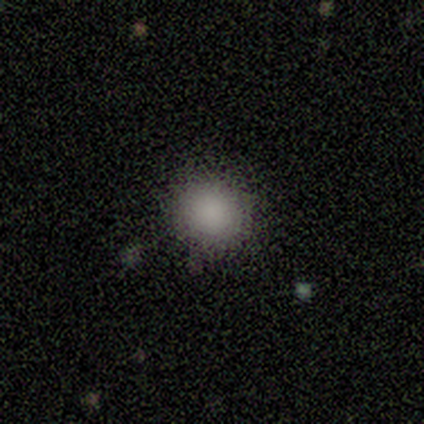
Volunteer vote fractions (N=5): Q: Smooth or featured?
A: smooth (80%); runner-up: star or artifact (20%)
Q: How rounded?
A: round (100%)
Q: Merging?
A: none (100%)